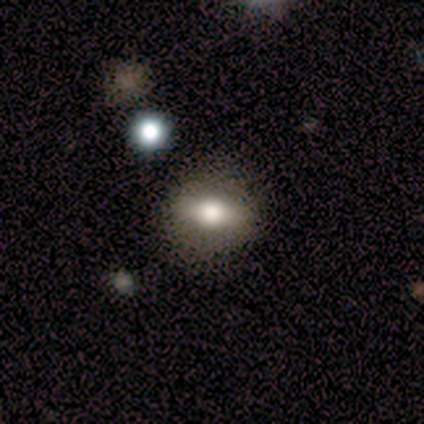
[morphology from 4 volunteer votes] This is likely a smooth galaxy (75%). How rounded: likely in between (67%). Merging: clearly none (100%).